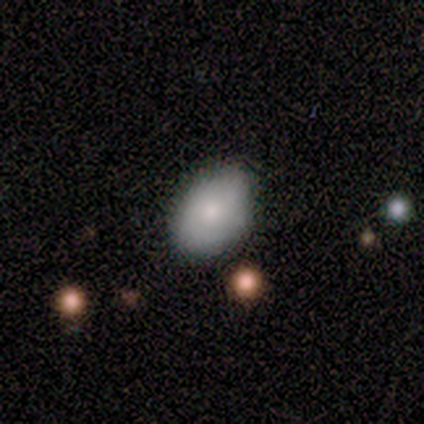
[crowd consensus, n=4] Smooth or featured: smooth — 75% (featured or disk — 25%)
How rounded: in between — 67% (round — 33%)
Merging: none — 50% (tied with minor disturbance — 50%)